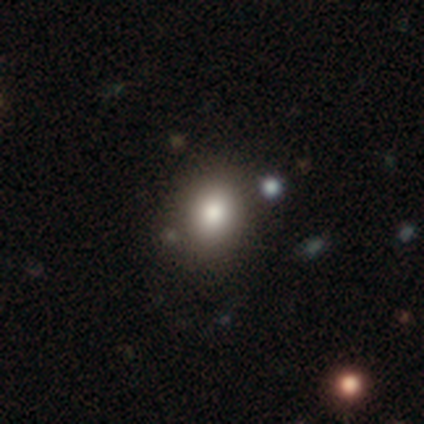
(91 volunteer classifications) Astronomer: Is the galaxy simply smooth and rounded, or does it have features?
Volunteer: smooth — 76%.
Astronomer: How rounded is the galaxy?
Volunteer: round — 62% (runner-up: in between, 38%).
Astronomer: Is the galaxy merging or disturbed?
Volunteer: none — 79%.